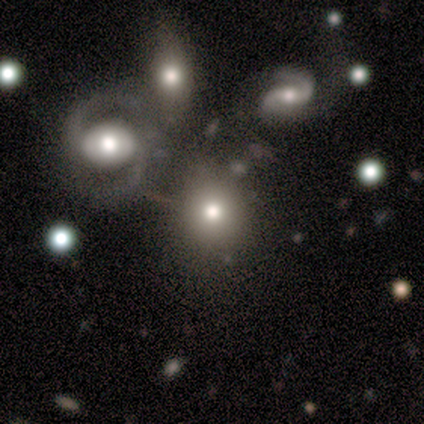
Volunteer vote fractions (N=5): This is clearly a smooth galaxy (80%). How rounded: possibly round (50%, tied with in between). Merging: possibly none (50%, tied with minor disturbance).